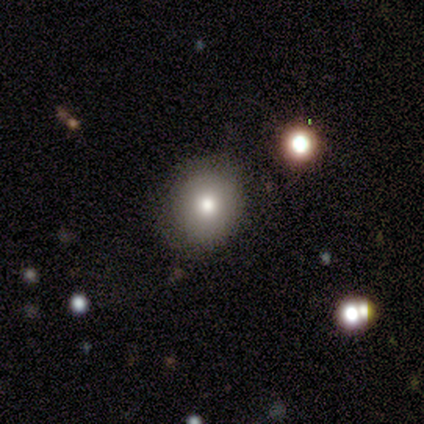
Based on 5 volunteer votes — Smooth or featured? smooth (100%)
How rounded? round (100%)
Merging? none (100%)